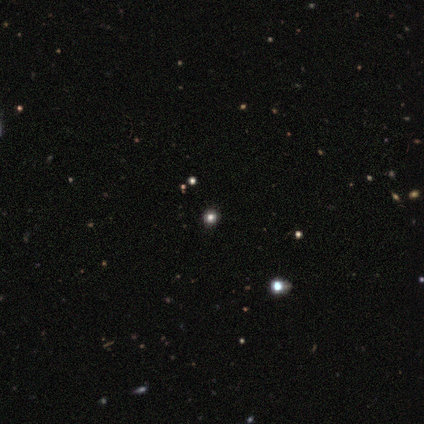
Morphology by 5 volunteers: A smooth galaxy with no disk features (80%) that is round (75%). Merging: none (100%).